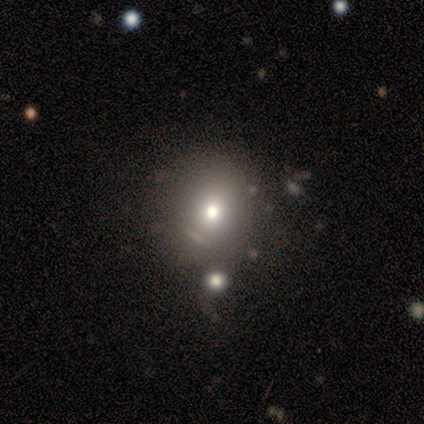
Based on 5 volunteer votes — A smooth galaxy with no disk features (80%) that is round (50%, tied with in between).

Vote fractions:
- Smooth or featured? smooth: 80% / featured or disk: 20% / star or artifact: 0%
- How rounded? round: 50% (tied) / in between: 50% (tied) / cigar-shaped: 0%
- Merging? none: 60% / minor disturbance: 20% / major disturbance: 20% / merger: 0%